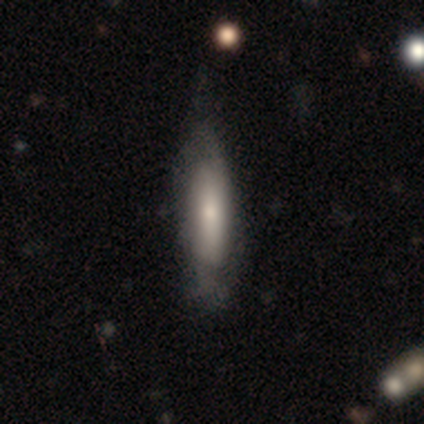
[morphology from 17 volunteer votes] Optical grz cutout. It shows a featured or disk galaxy (53%) viewed edge-on (67%) with no central bulge (50%). Merging: none (71%).